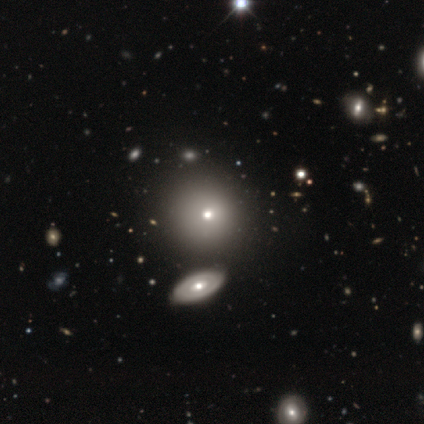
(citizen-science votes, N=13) Morphology: type=smooth (69%); roundness=round (100%); merging=none (73%).